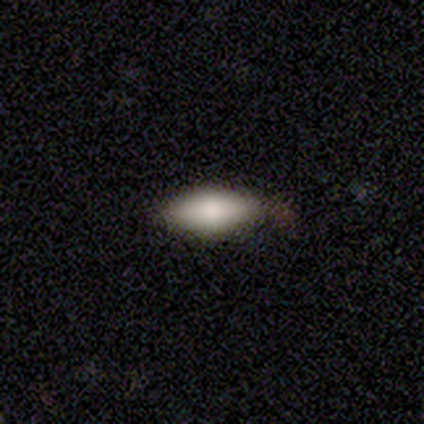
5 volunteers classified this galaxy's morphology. A smooth galaxy with no disk features (100%) that is in between round and cigar-shaped (80%).

Vote fractions:
- Smooth or featured? smooth: 100% / featured or disk: 0% / star or artifact: 0%
- How rounded? in between: 80% / cigar-shaped: 20% / round: 0%
- Merging? none: 100% / minor disturbance: 0% / major disturbance: 0% / merger: 0%